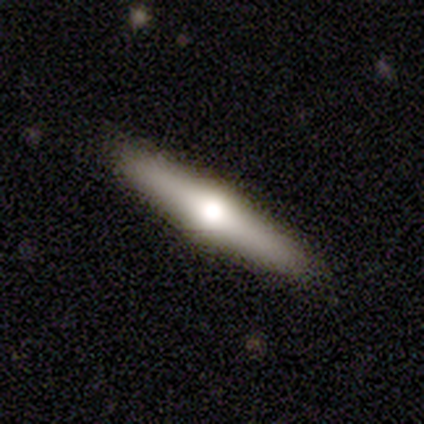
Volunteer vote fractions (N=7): Smooth or featured? 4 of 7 (57%) said smooth. How rounded? 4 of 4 (100%) said cigar-shaped. Merging? 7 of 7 (100%) said none.